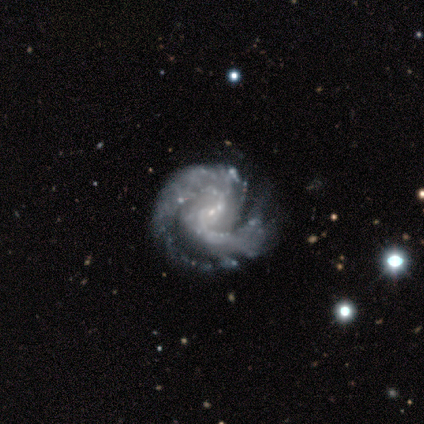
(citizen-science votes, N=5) This appears to be a featured or disk galaxy (100%) with a weak bar (40%, tied with no), 2 (50%) medium (50%) spiral arms (80%) and a small central bulge (60%). Merging: minor disturbance (60%).